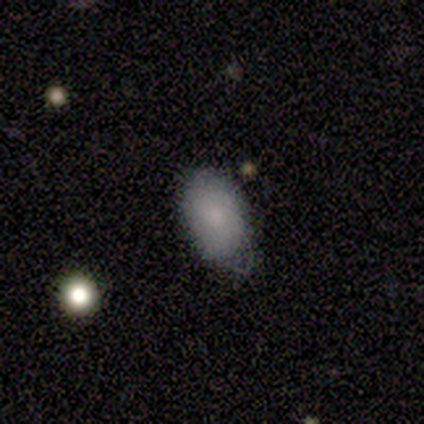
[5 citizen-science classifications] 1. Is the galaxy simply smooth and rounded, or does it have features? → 80% smooth, 20% star or artifact, 0% featured or disk.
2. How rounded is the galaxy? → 100% in between, 0% round, 0% cigar-shaped.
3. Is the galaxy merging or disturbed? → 50% none (tied), 50% minor disturbance (tied), 0% major disturbance, 0% merger.